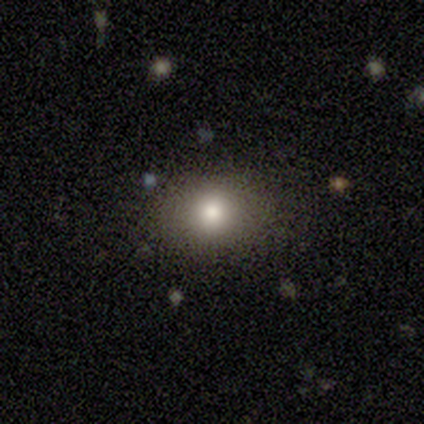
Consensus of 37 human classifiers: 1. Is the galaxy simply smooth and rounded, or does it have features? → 73% smooth, 19% star or artifact, 8% featured or disk.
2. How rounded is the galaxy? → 63% round, 37% in between, 0% cigar-shaped.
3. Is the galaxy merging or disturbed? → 93% none, 3% minor disturbance, 3% major disturbance, 0% merger.